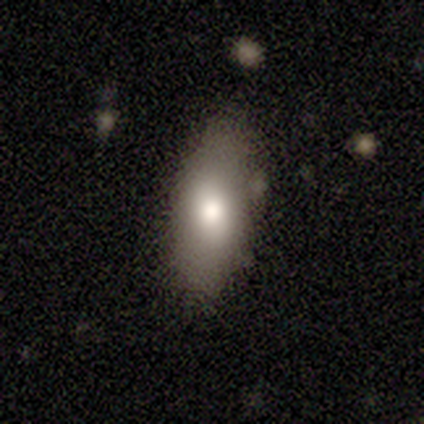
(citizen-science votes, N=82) smooth_or_featured: smooth (p=0.85) [alt: featured or disk p=0.07]
how_rounded: in between (p=0.86) [alt: cigar-shaped p=0.13]
merging: none (p=0.74) [alt: minor disturbance p=0.20]